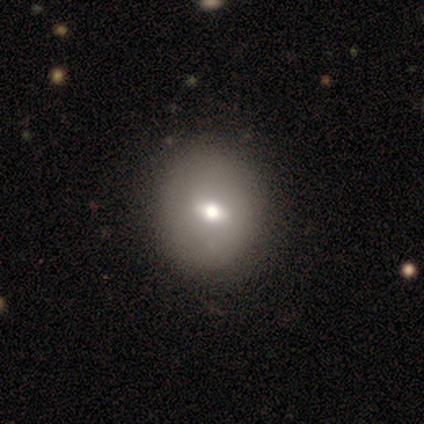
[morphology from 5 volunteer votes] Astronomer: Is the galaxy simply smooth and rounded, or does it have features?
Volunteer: smooth — 60% (runner-up: featured or disk, 40%).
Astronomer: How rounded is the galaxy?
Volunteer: in between — 67%.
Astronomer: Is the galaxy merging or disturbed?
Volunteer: none — 80%.